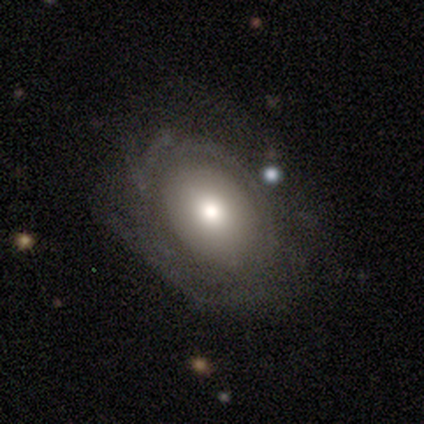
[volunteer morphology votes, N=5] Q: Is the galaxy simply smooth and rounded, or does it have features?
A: featured or disk — 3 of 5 (60%).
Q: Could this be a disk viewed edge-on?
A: no — 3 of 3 (100%).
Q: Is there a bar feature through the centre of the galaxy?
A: no — 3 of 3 (100%).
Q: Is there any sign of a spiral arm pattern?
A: no — 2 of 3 (67%).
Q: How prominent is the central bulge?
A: moderate — 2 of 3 (67%).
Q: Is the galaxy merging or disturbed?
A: none — 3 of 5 (60%).